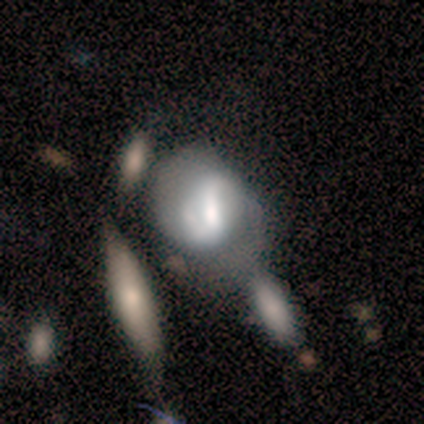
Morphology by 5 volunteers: This appears to be a featured or disk galaxy (60%) with a strong bar (67%), 2 (100%) tight (50%, tied with loose) spiral arms (67%) and a moderate central bulge (100%). Merging: minor disturbance (50%).